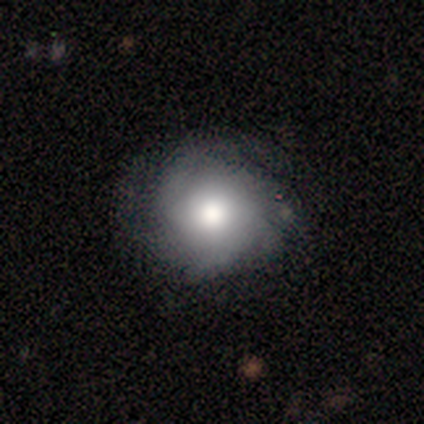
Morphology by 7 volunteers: Q: Smooth or featured?
A: smooth (43%); tied with: featured or disk (43%)
Q: How rounded?
A: round (100%)
Q: Merging?
A: none (83%); runner-up: minor disturbance (17%)